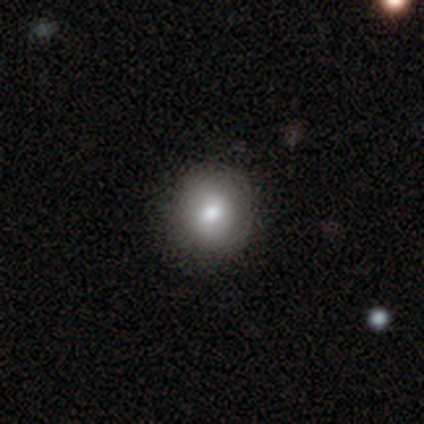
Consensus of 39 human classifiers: Smooth or featured: smooth — 82% (featured or disk — 15%)
How rounded: round — 88% (in between — 12%)
Merging: none — 63% (minor disturbance — 3%)